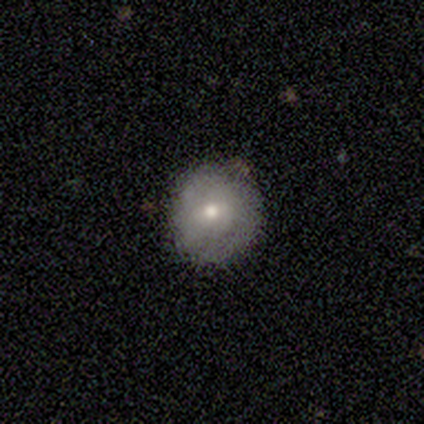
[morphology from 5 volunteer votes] A smooth galaxy with no disk features (60%) that is round (100%).

Vote fractions:
- Smooth or featured? smooth: 60% / featured or disk: 40% / star or artifact: 0%
- How rounded? round: 100% / in between: 0% / cigar-shaped: 0%
- Merging? none: 100% / minor disturbance: 0% / major disturbance: 0% / merger: 0%